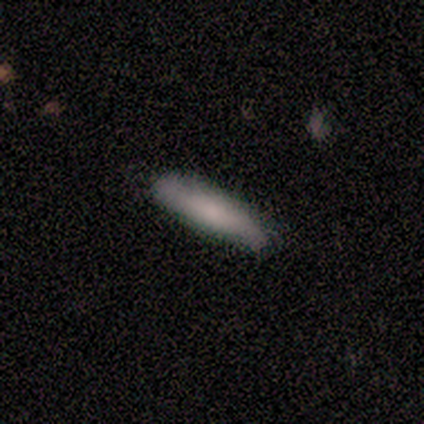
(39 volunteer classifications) A smooth galaxy with no disk features (69%) that is cigar-shaped (93%). Merging: none (78%).